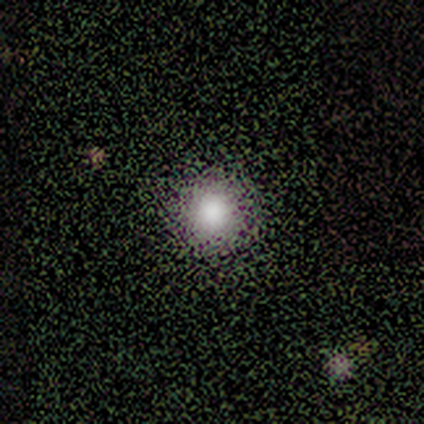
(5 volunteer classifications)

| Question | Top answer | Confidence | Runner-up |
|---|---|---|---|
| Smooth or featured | smooth | 40% | tied: star or artifact (40%) |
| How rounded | round | 100% | — |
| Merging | none | 67% | merger (33%) |